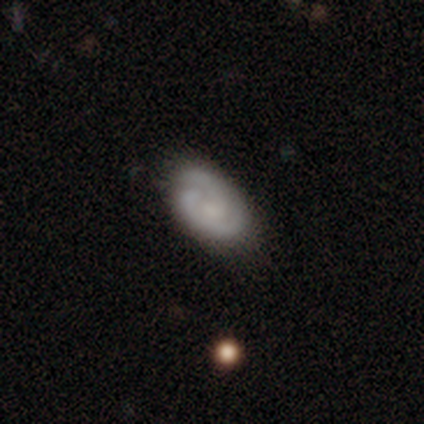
Smooth or featured? 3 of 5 (60%) said featured or disk. Edge-on disk? 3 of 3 (100%) said no. Bar? 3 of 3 (100%) said no. Spiral arms? 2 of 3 (67%) said yes. Spiral winding? 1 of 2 (50%, tied with loose) said medium. Spiral arm count? 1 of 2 (50%, tied with 3) said 2. Bulge size? 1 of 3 (33%, tied with small and none) said moderate. Merging? 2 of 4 (50%) said none.